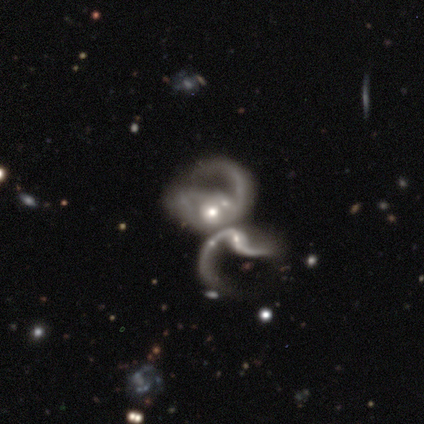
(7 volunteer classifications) This is clearly a featured or disk galaxy (100%). It is clearly not viewed edge-on (100%). Bar: marginally strong (43%, tied with no). Spiral arm pattern: clearly yes (100%). Spiral arm count: marginally 2 (43%). Spiral winding: possibly loose (57%). Central bulge: possibly small (57%). Merging: likely merger (71%).